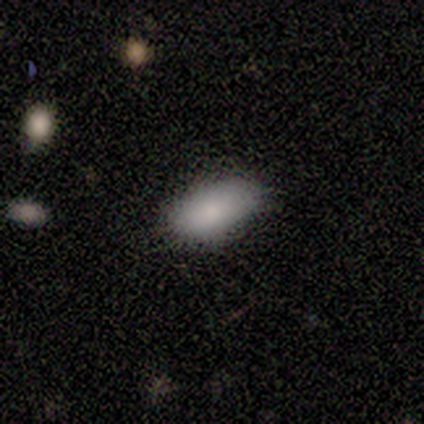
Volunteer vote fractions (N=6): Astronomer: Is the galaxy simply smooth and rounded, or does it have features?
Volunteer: smooth — 83%.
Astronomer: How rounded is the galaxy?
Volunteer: in between — 100%.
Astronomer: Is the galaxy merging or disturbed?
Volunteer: none — 67%.